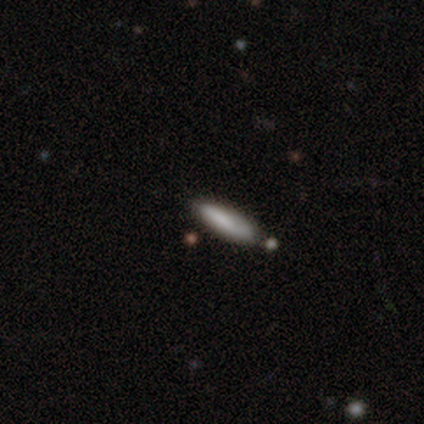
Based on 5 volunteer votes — Morphology: type=smooth (100%); roundness=cigar-shaped (100%); merging=none (80%).